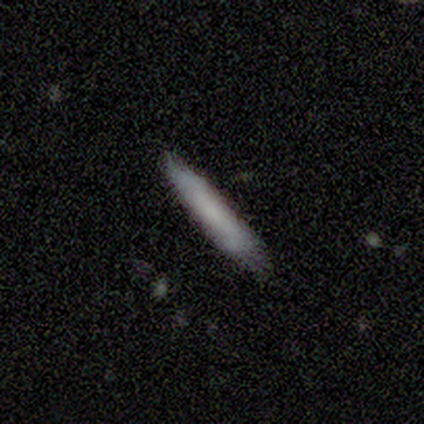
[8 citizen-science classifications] Overall: smooth (88%). How rounded: cigar-shaped (100%). Merging: none (75%).